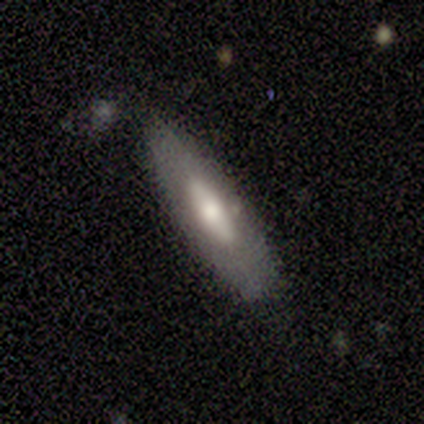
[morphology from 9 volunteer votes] A smooth galaxy with no disk features (44%) that is cigar-shaped (75%). Merging: none (57%).